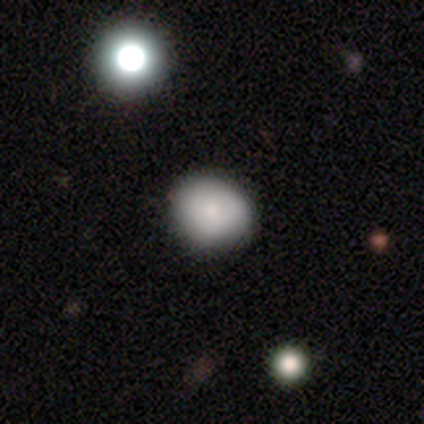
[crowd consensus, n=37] This appears to be a smooth galaxy with no disk features (84%) that is round (74%). Merging: none (59%).